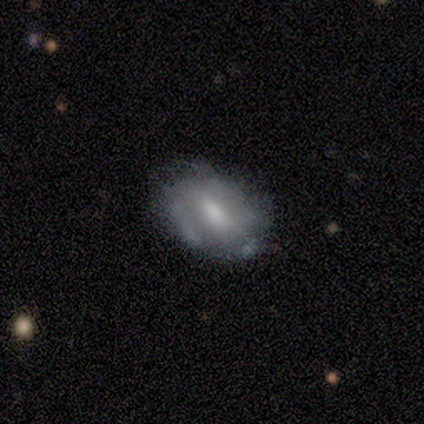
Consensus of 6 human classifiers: Morphology: type=featured or disk (83%); edge-on=no (100%); bar=no (60%); spiral arms=yes (60%); winding=tight (67%); arm count=2 (33%, tied with 3 and can't tell); bulge=none (40%); merging=none (50%).